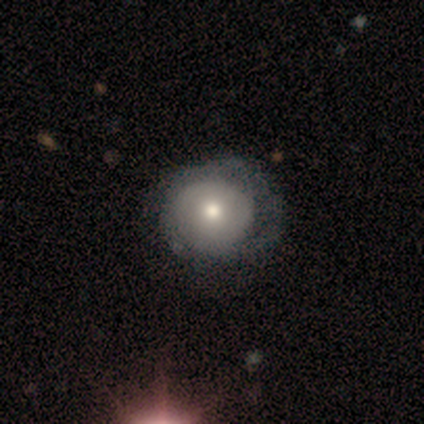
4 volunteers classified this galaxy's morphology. Smooth or featured?
  - smooth: 75% *
  - featured or disk: 25%
  - star or artifact: 0%
How rounded?
  - round: 100% *
  - in between: 0%
  - cigar-shaped: 0%
Merging?
  - none: 50% * (tied)
  - minor disturbance: 50% * (tied)
  - major disturbance: 0%
  - merger: 0%